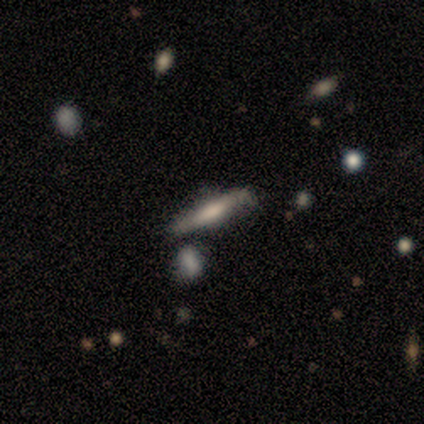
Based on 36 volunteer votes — Smooth or featured? featured or disk (69%)
Edge-on disk? yes (88%)
Edge-on bulge? rounded (45%)
Merging? none (79%)